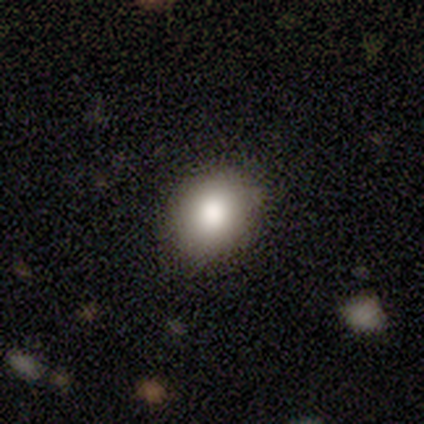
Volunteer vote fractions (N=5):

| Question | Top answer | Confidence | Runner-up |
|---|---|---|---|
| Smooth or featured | smooth | 80% | featured or disk (20%) |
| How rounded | round | 100% | — |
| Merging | none | 100% | — |